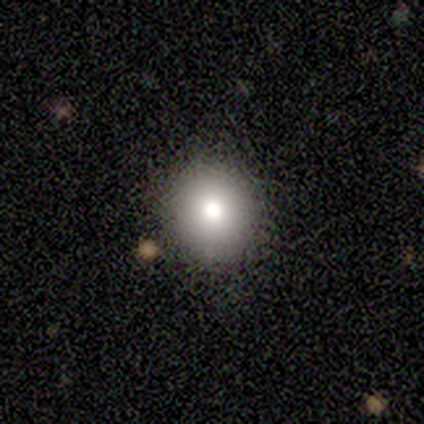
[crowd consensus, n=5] Q: Smooth or featured?
A: smooth (40%); tied with: featured or disk (40%)
Q: How rounded?
A: round (100%)
Q: Merging?
A: none (100%)